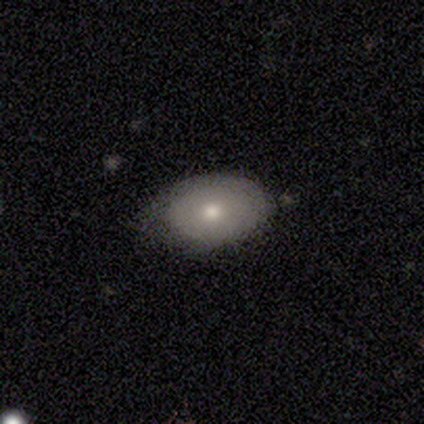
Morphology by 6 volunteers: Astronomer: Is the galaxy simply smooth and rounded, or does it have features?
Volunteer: smooth — 67%.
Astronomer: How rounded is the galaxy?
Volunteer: in between — 75%.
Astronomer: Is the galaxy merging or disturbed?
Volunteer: none — 50% (runner-up: major disturbance, 33%).